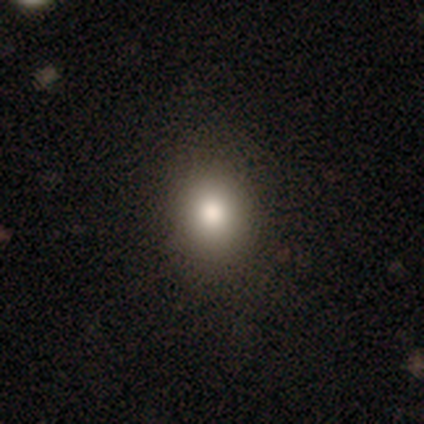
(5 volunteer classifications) Smooth or featured?
  - smooth: 100% *
  - featured or disk: 0%
  - star or artifact: 0%
How rounded?
  - round: 60% *
  - in between: 40%
  - cigar-shaped: 0%
Merging?
  - none: 100% *
  - minor disturbance: 0%
  - major disturbance: 0%
  - merger: 0%